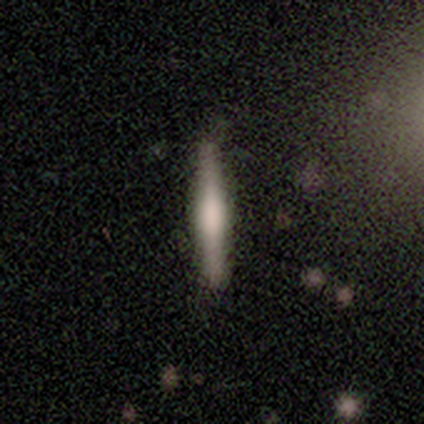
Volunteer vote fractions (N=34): Overall: featured or disk (53%; smooth 44%). Edge-on disk: yes (89%). Edge-on bulge: rounded (50%; boxy 38%). Merging: none (91%).